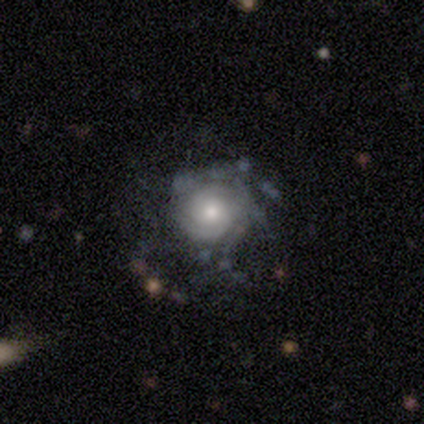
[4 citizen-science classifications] Smooth or featured? 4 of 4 (100%) said featured or disk. Edge-on disk? 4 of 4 (100%) said no. Bar? 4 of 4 (100%) said no. Spiral arms? 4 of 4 (100%) said yes. Spiral winding? 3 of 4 (75%) said tight. Spiral arm count? 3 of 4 (75%) said 2. Bulge size? 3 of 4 (75%) said moderate. Merging? 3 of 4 (75%) said none.